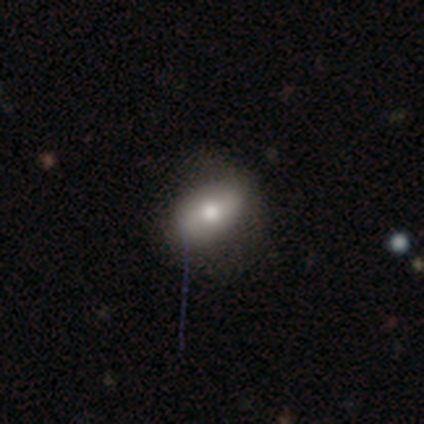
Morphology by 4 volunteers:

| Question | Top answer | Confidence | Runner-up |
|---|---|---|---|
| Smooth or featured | smooth | 50% | tied: featured or disk (50%) |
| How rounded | in between | 100% | — |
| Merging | none | 100% | — |